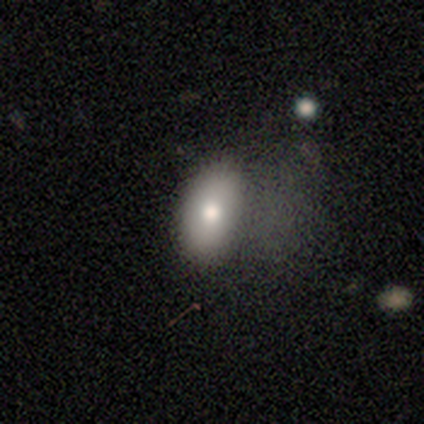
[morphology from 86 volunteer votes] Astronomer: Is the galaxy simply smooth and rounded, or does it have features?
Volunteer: smooth — 78%.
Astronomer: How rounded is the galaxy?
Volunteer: in between — 90%.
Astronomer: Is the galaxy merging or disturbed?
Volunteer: major disturbance — 45% (runner-up: none, 39%).